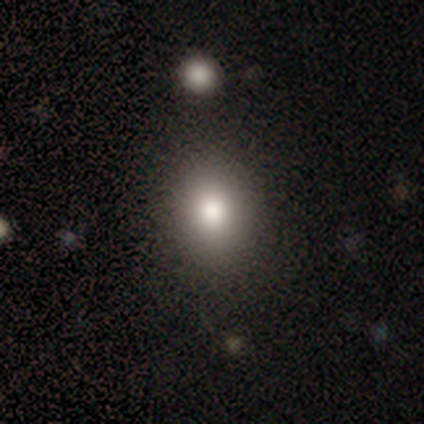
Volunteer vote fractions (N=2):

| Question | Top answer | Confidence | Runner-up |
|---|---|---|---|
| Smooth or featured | smooth | 100% | — |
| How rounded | in between | 100% | — |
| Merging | none | 50% | tied: minor disturbance (50%) |